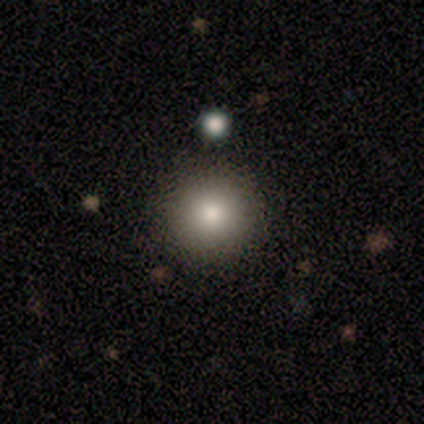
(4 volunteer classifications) This appears to be a smooth galaxy with no disk features (50%) that is round (100%). Merging: none (67%).